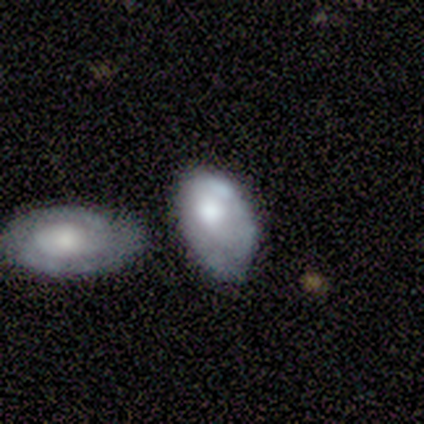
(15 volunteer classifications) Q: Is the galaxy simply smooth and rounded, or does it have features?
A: featured or disk — 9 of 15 (60%).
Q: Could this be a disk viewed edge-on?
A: no — 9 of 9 (100%).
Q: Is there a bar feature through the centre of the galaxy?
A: no — 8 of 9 (89%).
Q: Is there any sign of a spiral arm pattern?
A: no — 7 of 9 (78%).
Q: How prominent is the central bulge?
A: moderate — 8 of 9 (89%).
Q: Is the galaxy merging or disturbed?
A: none — 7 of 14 (50%).